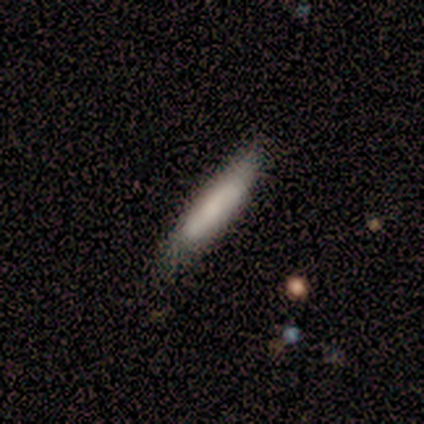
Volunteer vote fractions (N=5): Q: Smooth or featured?
A: smooth (80%); runner-up: featured or disk (20%)
Q: How rounded?
A: cigar-shaped (75%); runner-up: in between (25%)
Q: Merging?
A: none (80%); runner-up: minor disturbance (20%)